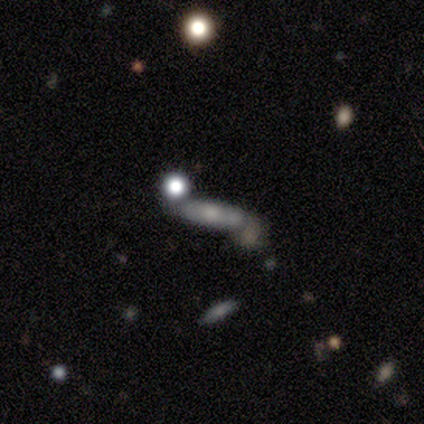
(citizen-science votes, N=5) Morphology: type=smooth (100%); roundness=cigar-shaped (60%); merging=none (60%).